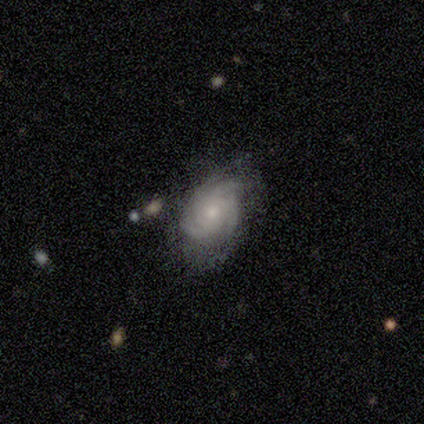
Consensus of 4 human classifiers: smooth_or_featured: featured or disk (p=1.00)
disk_edge_on: no (p=1.00)
bar: no (p=1.00)
has_spiral_arms: yes (p=1.00)
spiral_winding: tight (p=1.00)
spiral_arm_count: 3 (p=0.50) [tied with: 4 p=0.50]
bulge_size: moderate (p=0.75) [alt: none p=0.25]
merging: none (p=1.00)